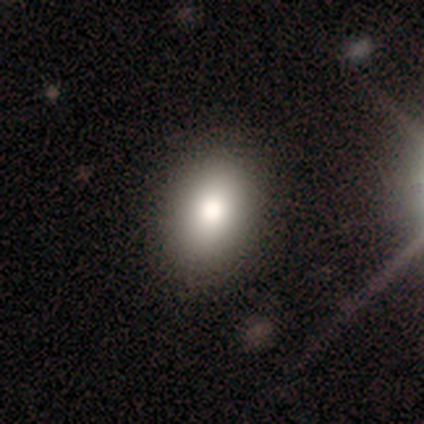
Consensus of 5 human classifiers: Smooth or featured?
  - smooth: 60% *
  - featured or disk: 40%
  - star or artifact: 0%
How rounded?
  - in between: 100% *
  - round: 0%
  - cigar-shaped: 0%
Merging?
  - none: 100% *
  - minor disturbance: 0%
  - major disturbance: 0%
  - merger: 0%